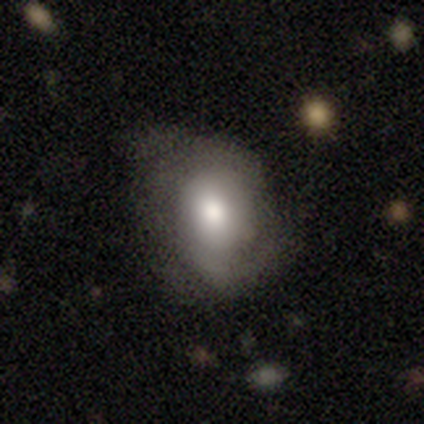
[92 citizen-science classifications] smooth 57%, featured or disk 37%, star or artifact 7%. Down the decision tree: how rounded — in between (62%); merging — none (37%).